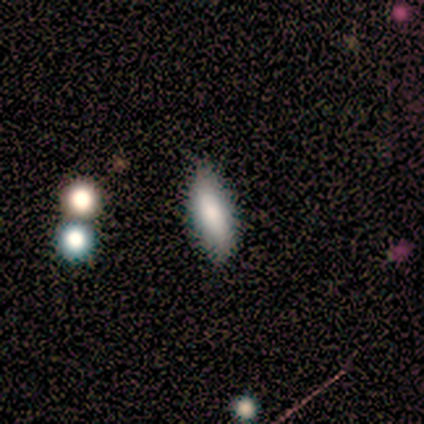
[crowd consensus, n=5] A smooth galaxy with no disk features (60%) that is cigar-shaped (67%). Merging: none (80%).